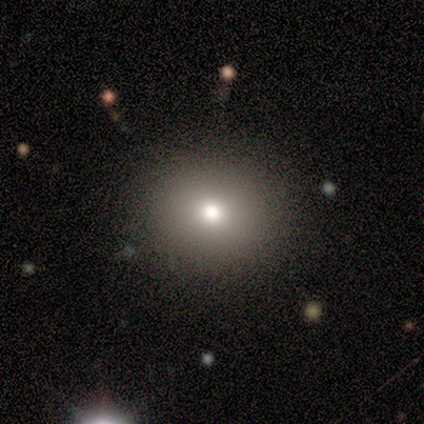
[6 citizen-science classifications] Smooth or featured? 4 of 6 (67%) said smooth. How rounded? 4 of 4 (100%) said round. Merging? 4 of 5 (80%) said none.